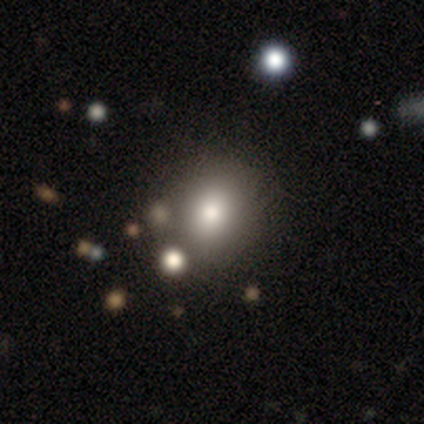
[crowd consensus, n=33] smooth 61%, featured or disk 21%, star or artifact 18%. Down the decision tree: how rounded — round (60%); merging — none (63%).